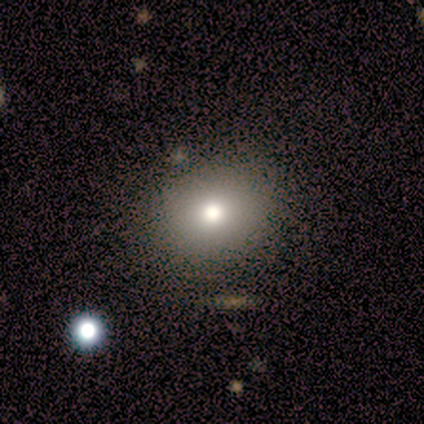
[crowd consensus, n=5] A smooth galaxy with no disk features (100%) that is round (100%). Merging: none (80%).